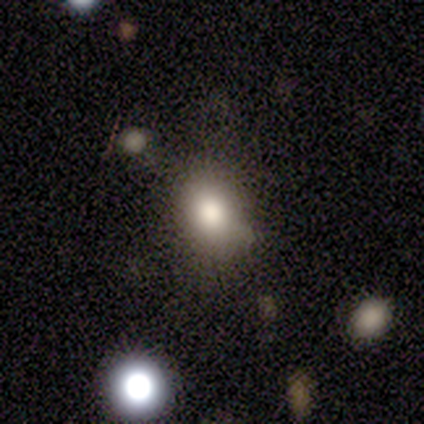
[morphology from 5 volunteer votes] smooth-or-featured: smooth: 100% | featured or disk: 0% | star or artifact: 0%
  how-rounded: in between: 60% | round: 40% | cigar-shaped: 0%
  merging: none: 80% | minor disturbance: 20% | major disturbance: 0% | merger: 0%